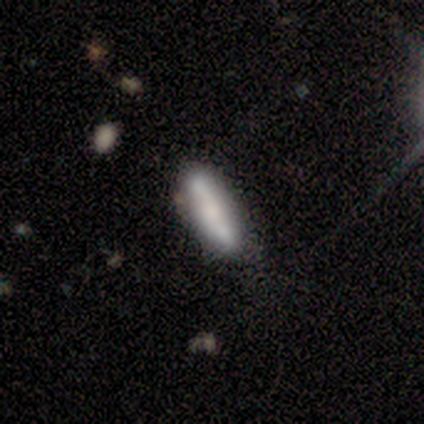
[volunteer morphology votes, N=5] Overall: smooth (80%). How rounded: in between (50%, tied with cigar-shaped). Merging: none (50%; minor disturbance 25%).